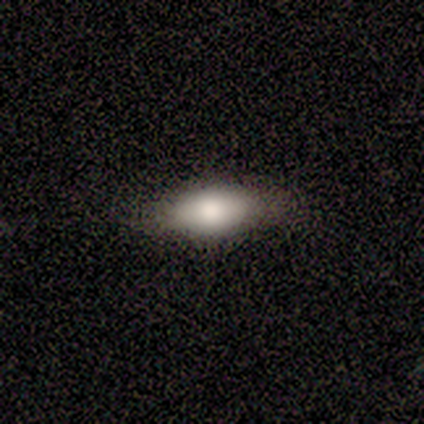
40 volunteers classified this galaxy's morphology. Smooth or featured: smooth — 72% (featured or disk — 22%)
How rounded: in between — 97% (cigar-shaped — 3%)
Merging: none — 89% (minor disturbance — 8%)